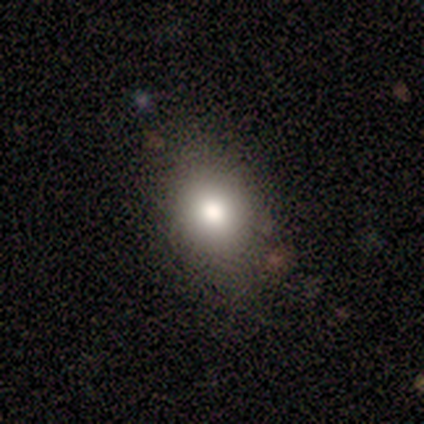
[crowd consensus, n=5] smooth-or-featured: smooth: 80% | star or artifact: 20% | featured or disk: 0%
  how-rounded: round: 50% (tied) | in between: 50% (tied) | cigar-shaped: 0%
  merging: none: 75% | major disturbance: 25% | minor disturbance: 0% | merger: 0%